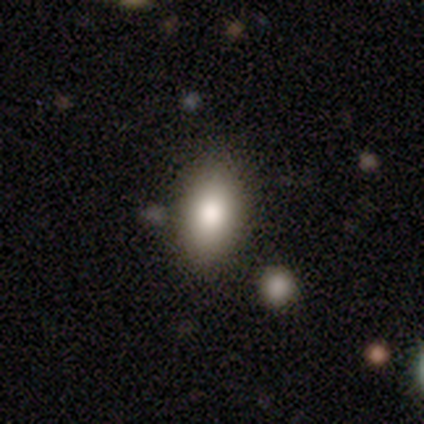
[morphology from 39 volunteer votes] smooth 82%, featured or disk 10%, star or artifact 8%. Down the decision tree: how rounded — in between (94%); merging — none (86%).